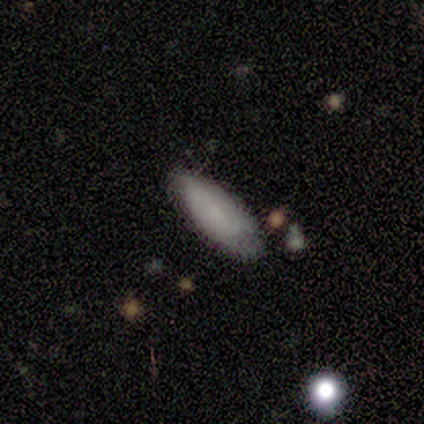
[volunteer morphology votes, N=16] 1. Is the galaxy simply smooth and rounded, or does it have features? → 75% smooth, 19% featured or disk, 6% star or artifact.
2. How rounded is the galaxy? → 67% in between, 33% cigar-shaped, 0% round.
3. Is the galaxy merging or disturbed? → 73% none, 13% minor disturbance, 13% merger, 0% major disturbance.